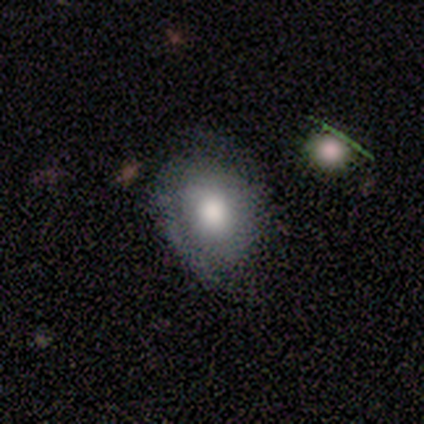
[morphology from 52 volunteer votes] Smooth or featured? smooth (48%)
How rounded? in between (56%)
Merging? none (51%)